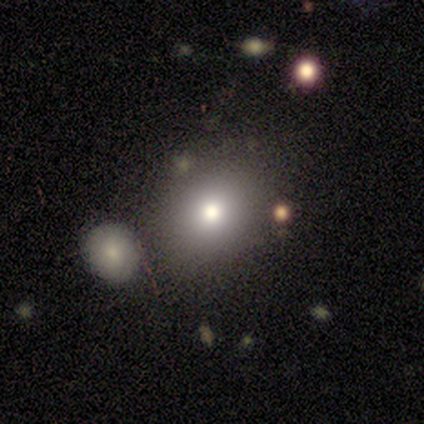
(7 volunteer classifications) Smooth or featured?
  - smooth: 86% *
  - star or artifact: 14%
  - featured or disk: 0%
How rounded?
  - round: 100% *
  - in between: 0%
  - cigar-shaped: 0%
Merging?
  - none: 83% *
  - major disturbance: 17%
  - minor disturbance: 0%
  - merger: 0%